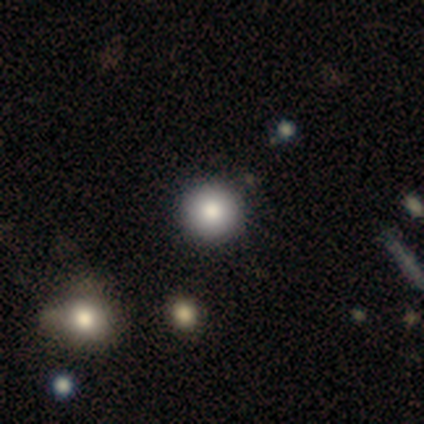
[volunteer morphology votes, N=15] Q: Smooth or featured?
A: smooth (87%); runner-up: featured or disk (7%)
Q: How rounded?
A: round (100%)
Q: Merging?
A: none (93%); runner-up: major disturbance (7%)